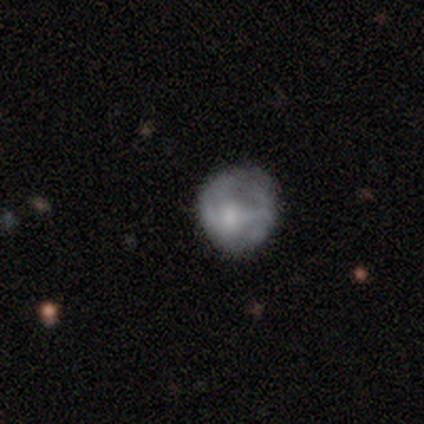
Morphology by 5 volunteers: Smooth or featured? 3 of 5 (60%) said smooth. How rounded? 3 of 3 (100%) said round. Merging? 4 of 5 (80%) said none.